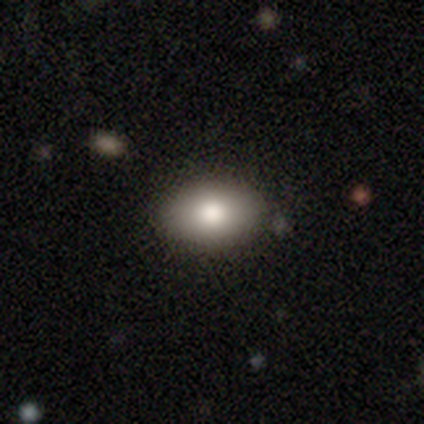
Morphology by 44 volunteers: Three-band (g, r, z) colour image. It shows a smooth galaxy with no disk features (80%) that is in between round and cigar-shaped (89%). Merging: none (95%).